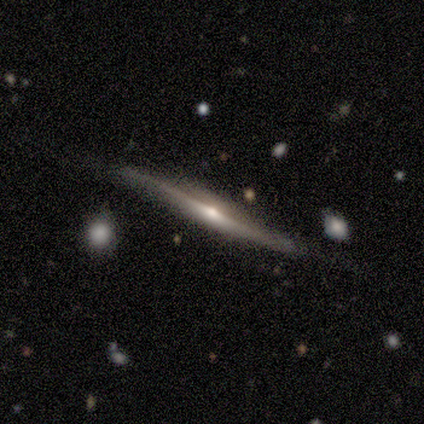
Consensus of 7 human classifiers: This appears to be a featured or disk galaxy (86%) viewed edge-on (100%) with a rounded central bulge (67%). Merging: none (71%).